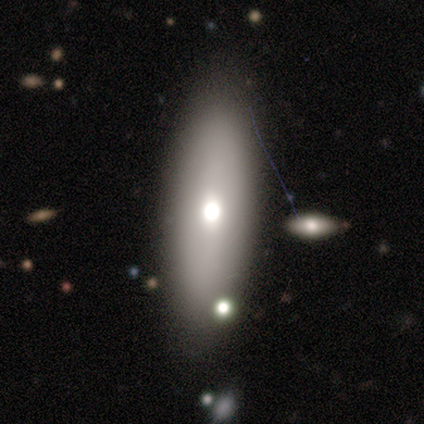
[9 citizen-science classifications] Smooth or featured?
  - smooth: 78% *
  - featured or disk: 11%
  - star or artifact: 11%
How rounded?
  - cigar-shaped: 57% *
  - in between: 43%
  - round: 0%
Merging?
  - none: 88% *
  - minor disturbance: 12%
  - major disturbance: 0%
  - merger: 0%